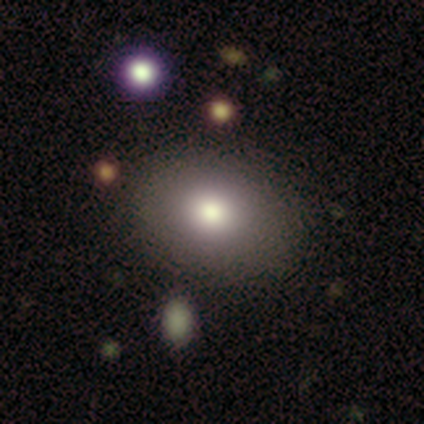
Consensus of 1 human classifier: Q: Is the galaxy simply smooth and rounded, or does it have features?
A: smooth — 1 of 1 (100%).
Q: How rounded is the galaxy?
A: in between — 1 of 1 (100%).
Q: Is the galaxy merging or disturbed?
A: none — 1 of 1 (100%).